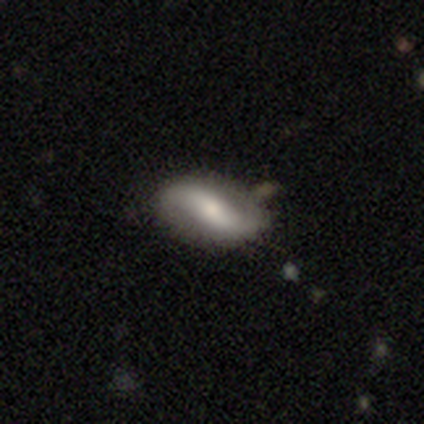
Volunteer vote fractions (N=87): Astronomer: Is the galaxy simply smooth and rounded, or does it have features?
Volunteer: featured or disk — 75%.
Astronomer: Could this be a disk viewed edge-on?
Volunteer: no — 94%.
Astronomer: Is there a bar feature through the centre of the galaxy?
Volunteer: strong — 44% (runner-up: weak, 33%).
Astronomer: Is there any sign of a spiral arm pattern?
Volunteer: yes — 82%.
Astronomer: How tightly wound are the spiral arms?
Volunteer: loose — 70%.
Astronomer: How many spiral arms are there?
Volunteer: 2 — 92%.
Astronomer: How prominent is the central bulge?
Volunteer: moderate — 51%.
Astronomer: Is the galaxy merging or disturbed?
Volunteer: none — 66%.